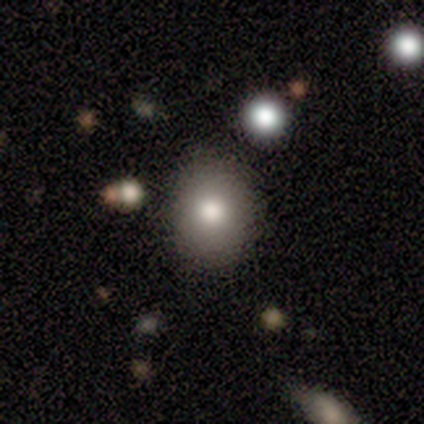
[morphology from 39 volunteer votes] Overall: smooth (79%). How rounded: round (58%; in between 42%). Merging: none (63%).